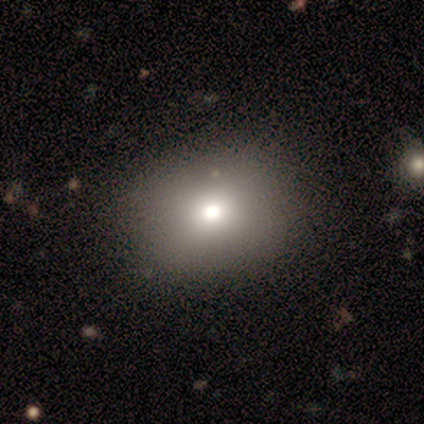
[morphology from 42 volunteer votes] A smooth galaxy with no disk features (62%) that is round (62%).

Vote fractions:
- Smooth or featured? smooth: 62% / featured or disk: 21% / star or artifact: 17%
- How rounded? round: 62% / in between: 38% / cigar-shaped: 0%
- Merging? none: 71% / minor disturbance: 3% / major disturbance: 3% / merger: 3%